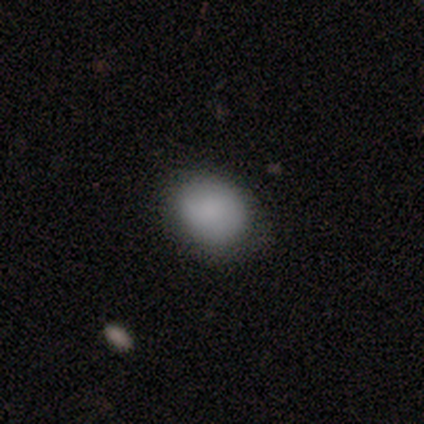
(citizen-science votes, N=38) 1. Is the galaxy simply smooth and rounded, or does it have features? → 84% smooth, 8% featured or disk, 8% star or artifact.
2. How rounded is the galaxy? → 56% round, 44% in between, 0% cigar-shaped.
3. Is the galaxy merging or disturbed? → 69% none, 29% minor disturbance, 3% merger, 0% major disturbance.